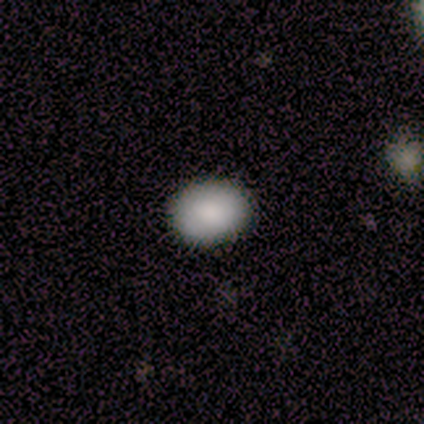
This appears to be a smooth galaxy with no disk features (80%) that is in between round and cigar-shaped (75%). Merging: none (100%).